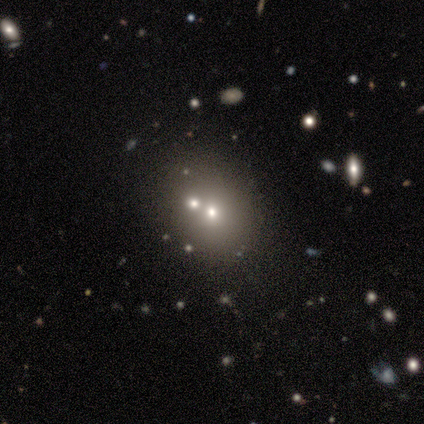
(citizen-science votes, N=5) Smooth or featured? smooth (40%, tied with featured or disk)
How rounded? round (100%)
Merging? merger (50%)